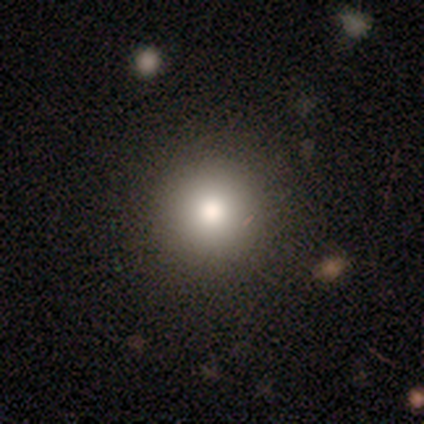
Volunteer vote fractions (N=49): Smooth or featured?
  - smooth: 78% *
  - star or artifact: 16%
  - featured or disk: 6%
How rounded?
  - round: 97% *
  - in between: 3%
  - cigar-shaped: 0%
Merging?
  - none: 88% *
  - minor disturbance: 7%
  - major disturbance: 5%
  - merger: 0%